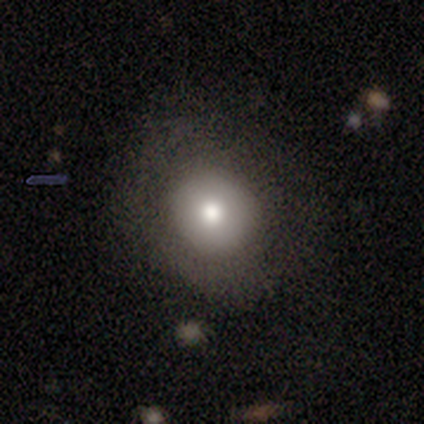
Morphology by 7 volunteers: Smooth or featured? smooth (71%)
How rounded? round (100%)
Merging? none (67%)